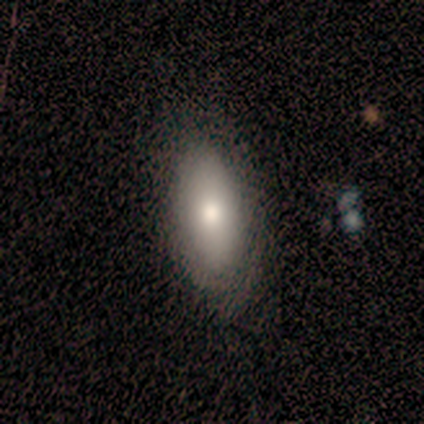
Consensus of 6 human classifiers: Smooth or featured? 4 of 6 (67%) said smooth. How rounded? 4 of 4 (100%) said in between. Merging? 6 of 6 (100%) said none.